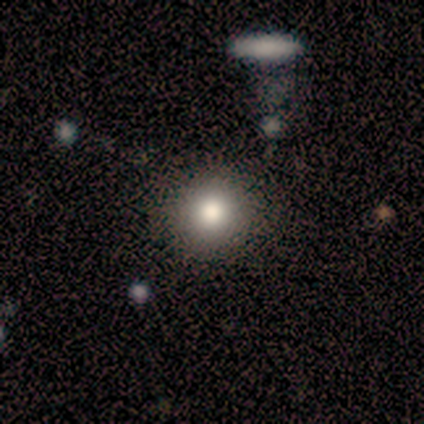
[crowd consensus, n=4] Smooth or featured? smooth (75%)
How rounded? round (100%)
Merging? none (100%)